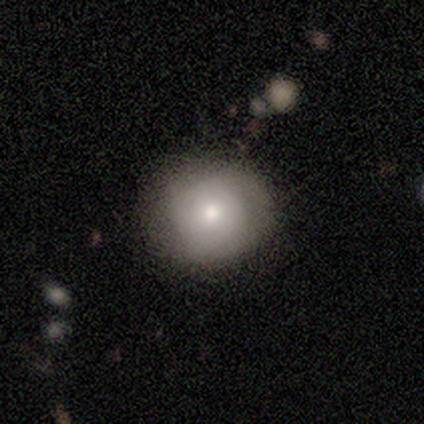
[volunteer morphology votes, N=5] Volunteers were most divided on "smooth or featured": smooth: 60%, featured or disk: 40%, star or artifact: 0%. More confident: how rounded — round (100%); merging — none (60%).